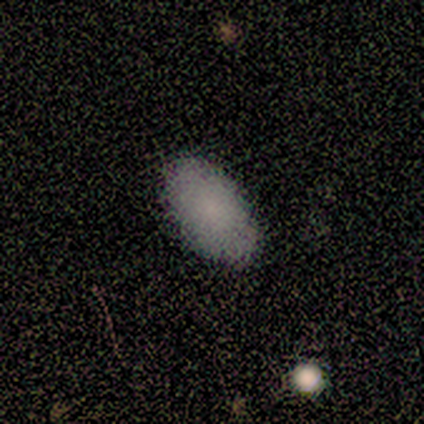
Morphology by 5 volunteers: This is clearly a smooth galaxy (100%). How rounded: clearly in between (100%). Merging: clearly none (80%).